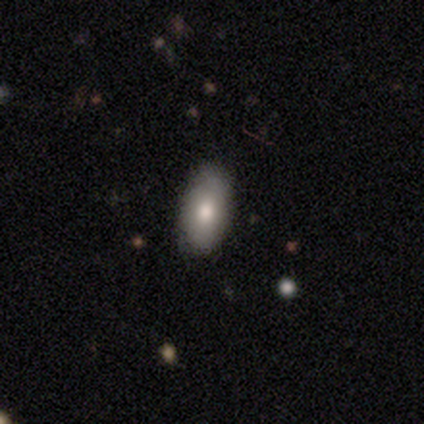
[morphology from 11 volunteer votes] This appears to be a smooth galaxy with no disk features (91%) that is in between round and cigar-shaped (90%). Merging: none (100%).